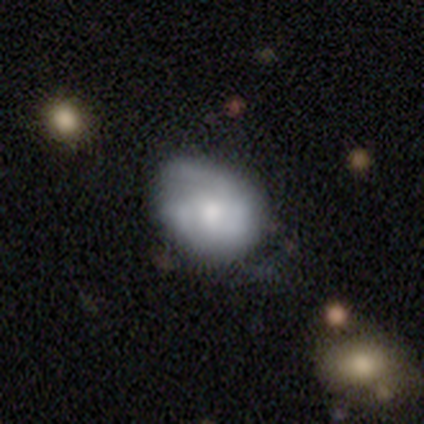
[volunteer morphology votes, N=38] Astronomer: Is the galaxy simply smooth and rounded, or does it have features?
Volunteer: smooth — 55% (runner-up: featured or disk, 34%).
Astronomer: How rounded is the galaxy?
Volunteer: round — 52% (runner-up: in between, 48%).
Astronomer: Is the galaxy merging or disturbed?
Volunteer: none — 65%.